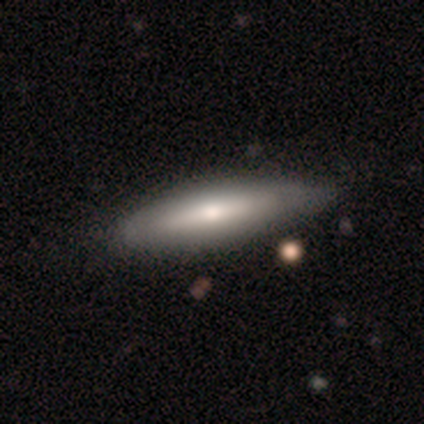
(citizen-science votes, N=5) Volunteers were most divided on "edge-on bulge": rounded: 80%, none: 20%, boxy: 0%. More confident: smooth or featured — featured or disk (100%); edge-on disk — yes (100%); merging — none (100%).